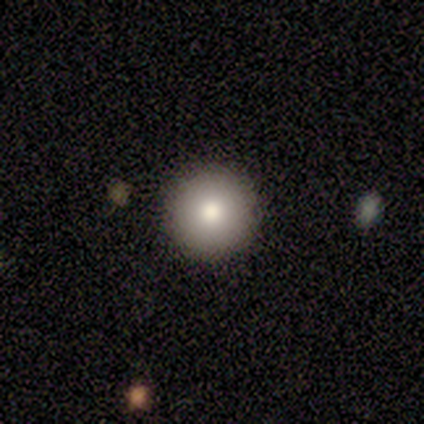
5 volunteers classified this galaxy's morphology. A smooth galaxy with no disk features (60%) that is round (100%). Merging: none (100%).